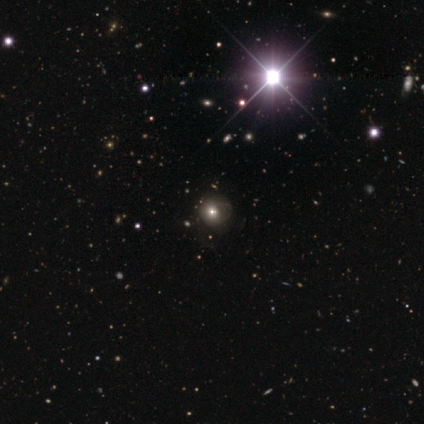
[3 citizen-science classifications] This appears to be a smooth galaxy with no disk features (67%) that is round (100%). Merging: none (100%).